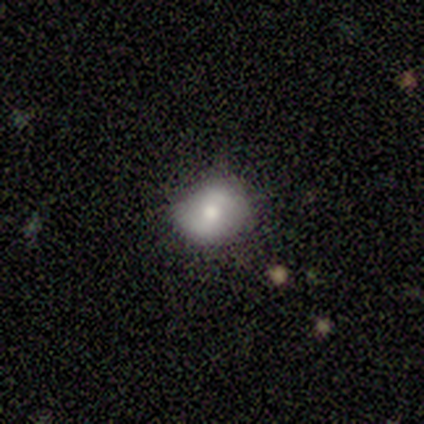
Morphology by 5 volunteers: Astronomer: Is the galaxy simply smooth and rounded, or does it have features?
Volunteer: featured or disk — 60% (runner-up: smooth, 40%).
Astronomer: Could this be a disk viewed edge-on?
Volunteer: no — 100%.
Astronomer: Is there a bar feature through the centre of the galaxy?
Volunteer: no — 100%.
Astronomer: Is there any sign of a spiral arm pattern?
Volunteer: no — 100%.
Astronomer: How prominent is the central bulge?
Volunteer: moderate — 100%.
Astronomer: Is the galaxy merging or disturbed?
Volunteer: none — 60% (runner-up: minor disturbance, 40%).